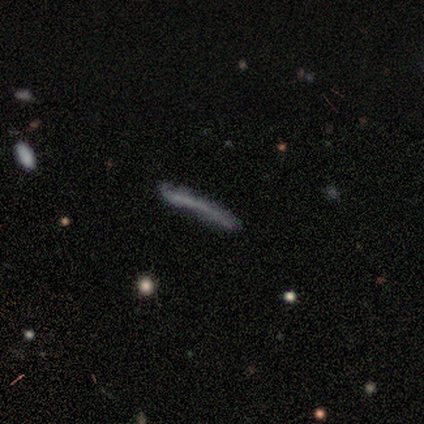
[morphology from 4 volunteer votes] This appears to be a smooth galaxy with no disk features (75%) that is cigar-shaped (100%). Merging: minor disturbance (75%).